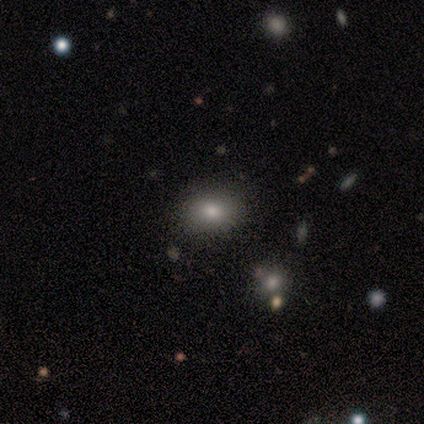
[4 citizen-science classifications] Volunteers were most divided on "how rounded": round: 67%, in between: 33%, cigar-shaped: 0%. More confident: smooth or featured — smooth (75%); merging — none (75%).